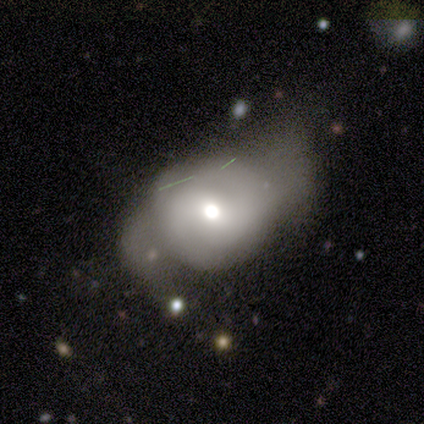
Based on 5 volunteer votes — Smooth or featured?
  - featured or disk: 60% *
  - smooth: 20%
  - star or artifact: 20%
Edge-on disk?
  - no: 100% *
  - yes: 0%
Bar?
  - no: 67% *
  - weak: 33%
  - strong: 0%
Spiral arms?
  - yes: 67% *
  - no: 33%
Spiral winding?
  - medium: 50% * (tied)
  - loose: 50% * (tied)
  - tight: 0%
Spiral arm count?
  - 2: 50% * (tied)
  - can't tell: 50% * (tied)
  - 1: 0%
  - 3: 0%
  - 4: 0%
  - more than 4: 0%
Bulge size?
  - moderate: 67% *
  - small: 33%
  - dominant: 0%
  - large: 0%
  - none: 0%
Merging?
  - none: 50% *
  - minor disturbance: 25%
  - major disturbance: 25%
  - merger: 0%